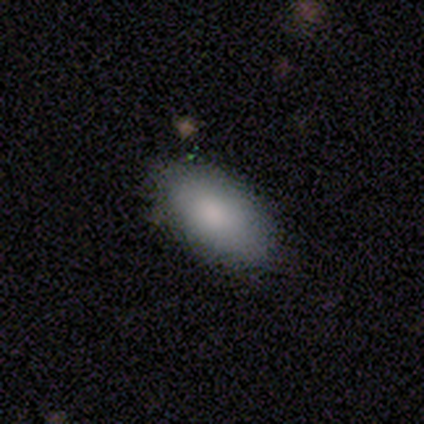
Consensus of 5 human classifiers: Smooth or featured? 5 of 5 (100%) said smooth. How rounded? 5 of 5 (100%) said in between. Merging? 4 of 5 (80%) said none.